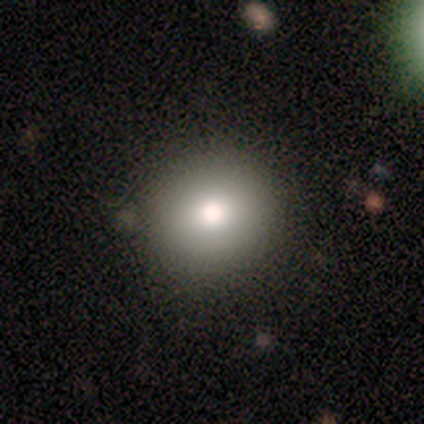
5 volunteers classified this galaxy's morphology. Overall: smooth (60%; star or artifact 40%). How rounded: round (100%). Merging: none (100%).